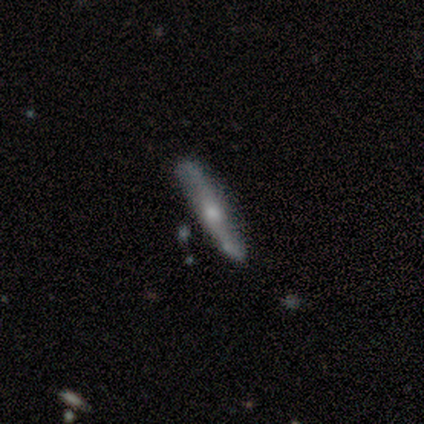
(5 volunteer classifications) Volunteers were most divided on "edge-on bulge" (2-way tie): boxy: 50%, rounded: 50%, none: 0%. More confident: merging — none (80%); edge-on disk — yes (67%); smooth or featured — featured or disk (60%).